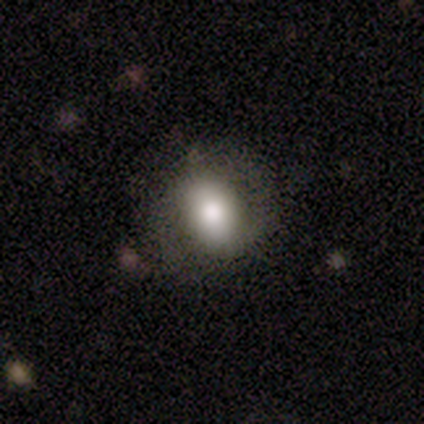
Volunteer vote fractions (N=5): This is likely a star or artifact rather than a galaxy (60%).